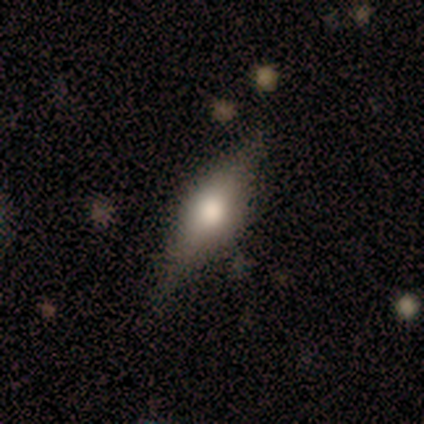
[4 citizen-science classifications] Volunteers were most divided on "smooth or featured": featured or disk: 75%, smooth: 25%, star or artifact: 0%. More confident: edge-on disk — yes (100%); edge-on bulge — rounded (100%); merging — none (75%).